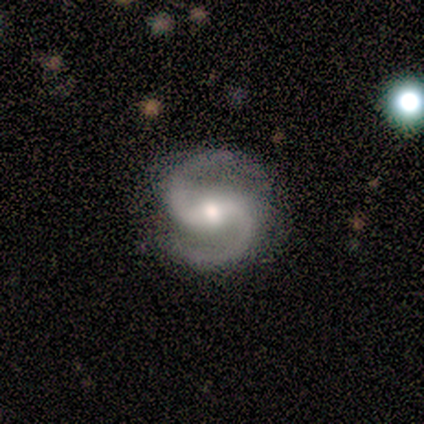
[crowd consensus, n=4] Overall: featured or disk (100%). Edge-on disk: no (100%). Bar: strong (50%, tied with weak). Spiral arms: yes (100%). Spiral arm count: 2 (100%). Spiral winding: medium (75%). Bulge size: moderate (50%, tied with small). Merging: none (100%).